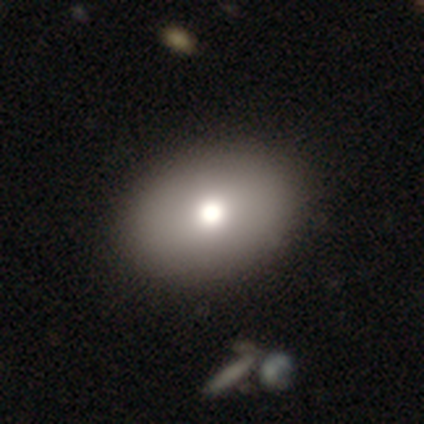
Smooth or featured?
  - smooth: 77% *
  - featured or disk: 23%
  - star or artifact: 0%
How rounded?
  - in between: 77% *
  - round: 23%
  - cigar-shaped: 0%
Merging?
  - none: 72% *
  - minor disturbance: 0%
  - major disturbance: 0%
  - merger: 0%